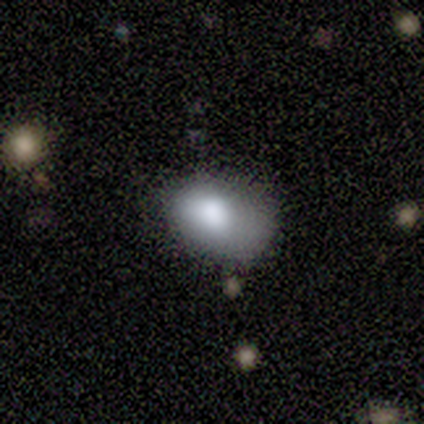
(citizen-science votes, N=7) Q: Smooth or featured?
A: smooth (100%)
Q: How rounded?
A: in between (86%); runner-up: round (14%)
Q: Merging?
A: none (57%); runner-up: minor disturbance (29%)